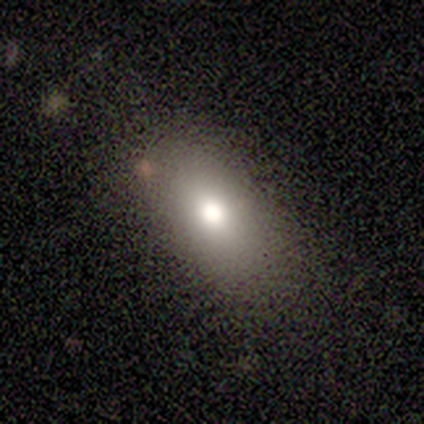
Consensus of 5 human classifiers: Q: Smooth or featured?
A: smooth (100%)
Q: How rounded?
A: in between (100%)
Q: Merging?
A: none (80%); runner-up: minor disturbance (20%)